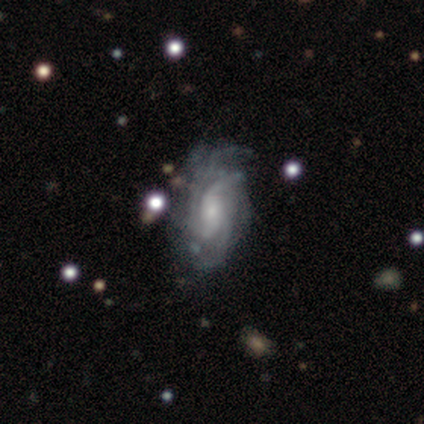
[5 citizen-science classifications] featured or disk 100%, smooth 0%, star or artifact 0%. Down the decision tree: edge-on disk — no (100%); bar — no (60%); spiral arms — yes (100%); spiral arm count — 3 (60%); spiral winding — tight (40%, tied with loose); bulge size — small (80%); merging — none (100%).